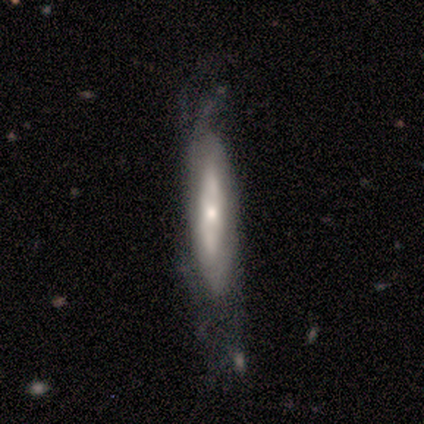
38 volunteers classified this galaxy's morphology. A featured or disk galaxy (74%) with no bar (75%), no spiral arms (56%) and a small central bulge (50%). Merging: none (45%).